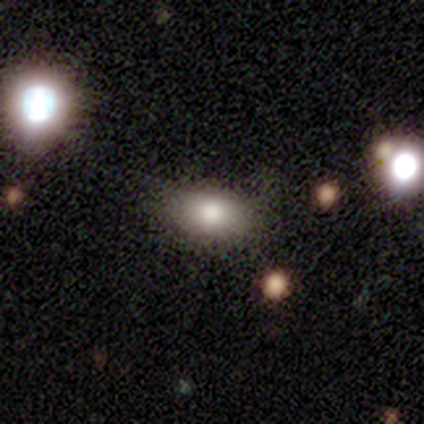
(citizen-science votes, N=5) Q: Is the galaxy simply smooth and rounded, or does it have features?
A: smooth — 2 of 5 (40%, tied with featured or disk).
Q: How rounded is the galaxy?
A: in between — 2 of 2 (100%).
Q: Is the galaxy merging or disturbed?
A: none — 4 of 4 (100%).